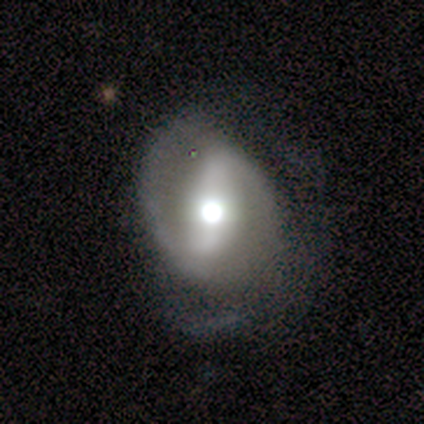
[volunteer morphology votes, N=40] smooth_or_featured: featured or disk (p=0.72) [alt: smooth p=0.20]
disk_edge_on: no (p=1.00)
bar: strong (p=0.83) [alt: weak p=0.14]
has_spiral_arms: yes (p=0.90) [alt: no p=0.10]
spiral_winding: medium (p=0.42) [alt: tight p=0.35]
spiral_arm_count: 2 (p=0.96) [alt: 1 p=0.04]
bulge_size: large (p=0.48) [tied with: moderate p=0.48]
merging: none (p=0.59) [alt: minor disturbance p=0.27]